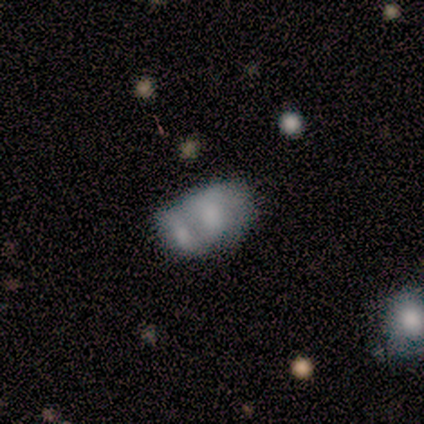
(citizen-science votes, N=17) Smooth or featured? 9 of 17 (53%) said smooth. How rounded? 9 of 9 (100%) said in between. Merging? 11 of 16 (69%) said merger.